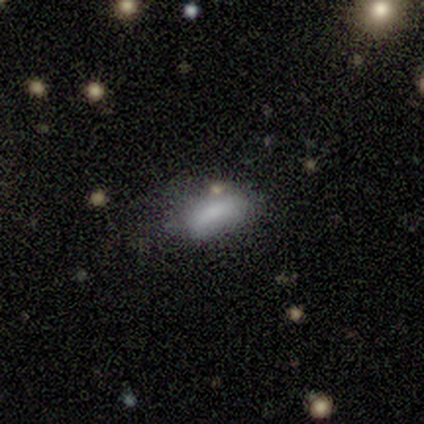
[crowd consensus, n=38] Q: Smooth or featured?
A: smooth (76%); runner-up: star or artifact (13%)
Q: How rounded?
A: in between (86%); runner-up: round (7%)
Q: Merging?
A: none (45%); runner-up: minor disturbance (39%)